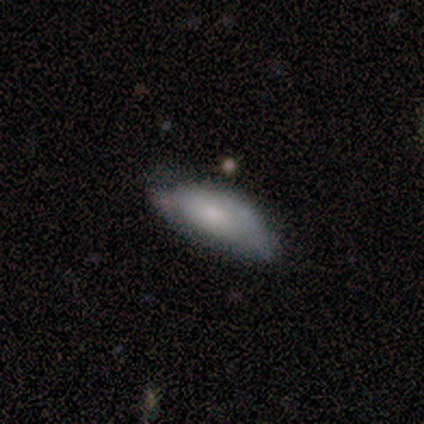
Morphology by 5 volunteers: Smooth or featured: smooth — 60% (featured or disk — 40%)
How rounded: in between — 67% (cigar-shaped — 33%)
Merging: none — 60% (minor disturbance — 40%)